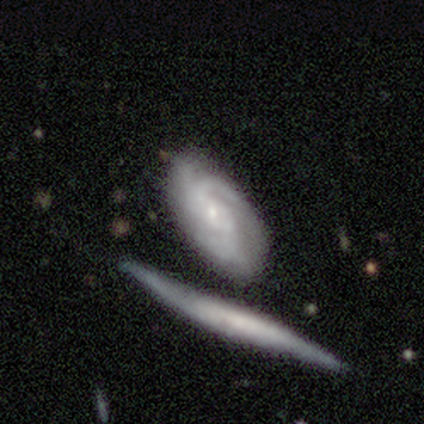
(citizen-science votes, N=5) Morphology: type=featured or disk (80%); edge-on=no (75%); bar=no (100%); spiral arms=yes (100%); winding=medium (67%); arm count=3 (67%); bulge=small (67%); merging=none (75%).